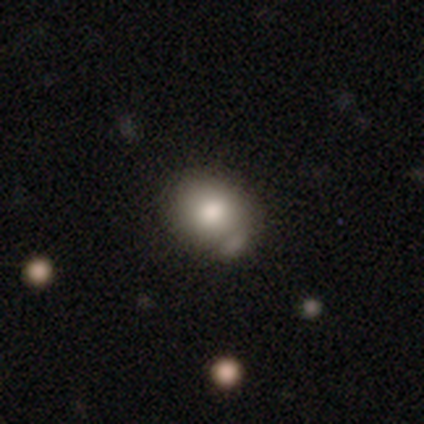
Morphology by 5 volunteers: smooth 100%, featured or disk 0%, star or artifact 0%. Down the decision tree: how rounded — in between (100%); merging — minor disturbance (80%).